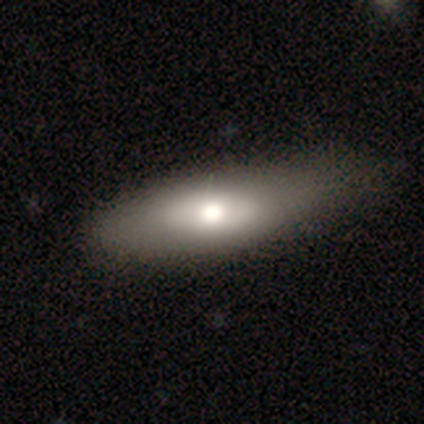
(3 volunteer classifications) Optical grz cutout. It shows a smooth galaxy with no disk features (100%) that is cigar-shaped (100%). Merging: none (67%).